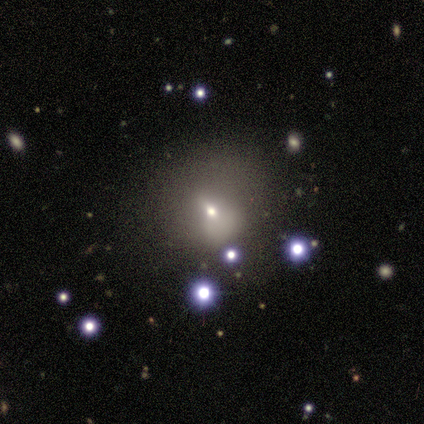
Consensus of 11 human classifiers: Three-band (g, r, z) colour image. It shows a smooth galaxy with no disk features (82%) that is in between round and cigar-shaped (67%). Merging: none (40%, tied with minor disturbance).